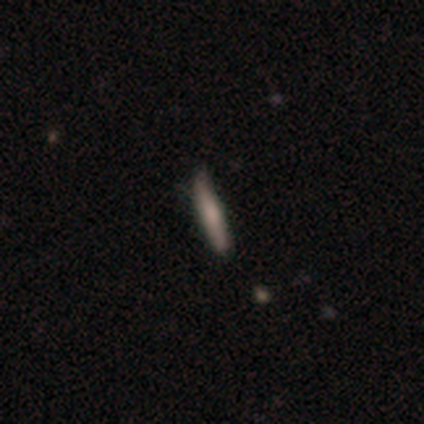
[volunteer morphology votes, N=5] Smooth or featured? 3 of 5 (60%) said smooth. How rounded? 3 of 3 (100%) said cigar-shaped. Merging? 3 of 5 (60%) said none.